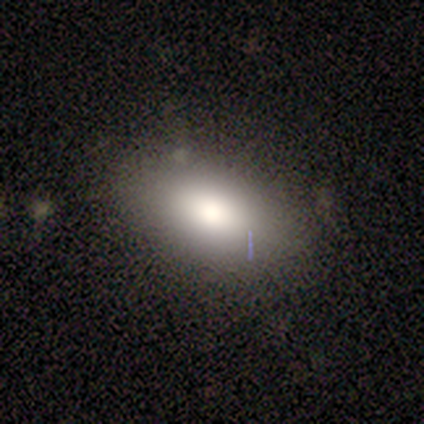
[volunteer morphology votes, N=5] A smooth galaxy with no disk features (80%) that is in between round and cigar-shaped (100%).

Vote fractions:
- Smooth or featured? smooth: 80% / star or artifact: 20% / featured or disk: 0%
- How rounded? in between: 100% / round: 0% / cigar-shaped: 0%
- Merging? none: 100% / minor disturbance: 0% / major disturbance: 0% / merger: 0%